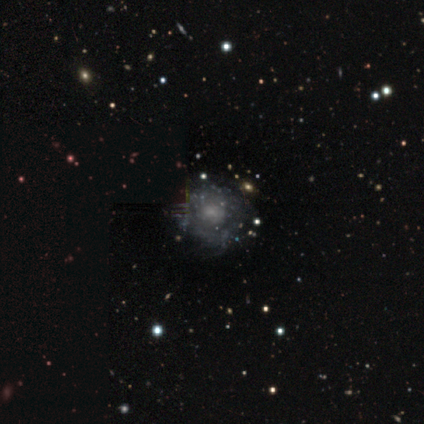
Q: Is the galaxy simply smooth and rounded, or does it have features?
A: featured or disk — 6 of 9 (67%).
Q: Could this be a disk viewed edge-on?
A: no — 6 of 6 (100%).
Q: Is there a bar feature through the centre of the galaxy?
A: no — 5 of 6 (83%).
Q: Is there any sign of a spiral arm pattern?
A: no — 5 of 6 (83%).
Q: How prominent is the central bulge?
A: moderate — 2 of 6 (33%, tied with small).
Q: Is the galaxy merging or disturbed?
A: none — 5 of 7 (71%).